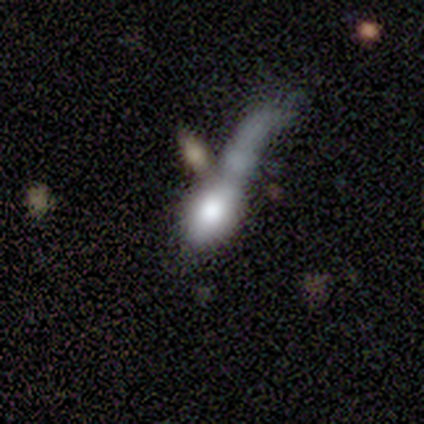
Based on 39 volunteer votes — Smooth or featured: smooth — 72% (featured or disk — 23%)
How rounded: in between — 75% (cigar-shaped — 18%)
Merging: major disturbance — 43% (merger — 27%)